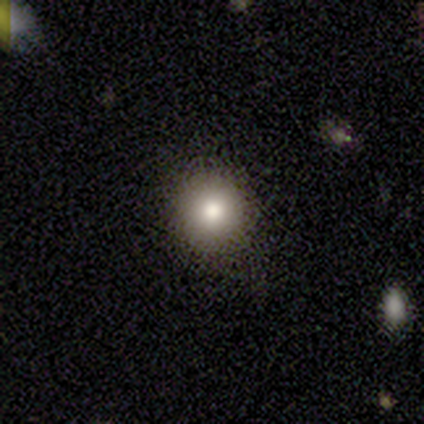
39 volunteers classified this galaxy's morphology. This is likely a smooth galaxy (79%). How rounded: clearly round (97%). Merging: clearly none (88%).